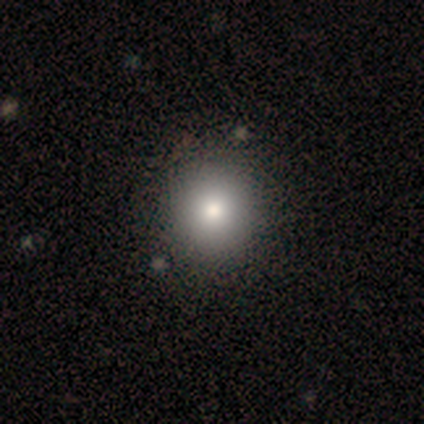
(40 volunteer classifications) Smooth or featured?
  - smooth: 82% *
  - featured or disk: 12%
  - star or artifact: 5%
How rounded?
  - round: 100% *
  - in between: 0%
  - cigar-shaped: 0%
Merging?
  - none: 74% *
  - minor disturbance: 5%
  - merger: 3%
  - major disturbance: 0%